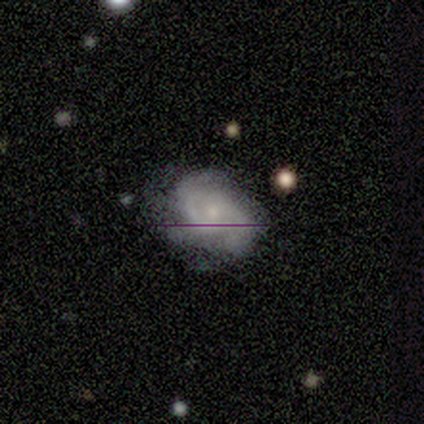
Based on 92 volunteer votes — Overall: featured or disk (67%). Edge-on disk: no (94%). Bar: no (66%; weak 31%). Spiral arms: yes (90%). Spiral arm count: 2 (54%; 3 31%). Spiral winding: tight (48%; medium 38%). Bulge size: small (79%). Merging: none (66%).